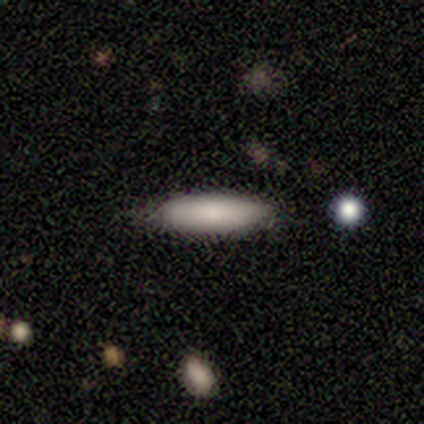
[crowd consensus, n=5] A smooth galaxy with no disk features (100%) that is cigar-shaped (80%).

Vote fractions:
- Smooth or featured? smooth: 100% / featured or disk: 0% / star or artifact: 0%
- How rounded? cigar-shaped: 80% / in between: 20% / round: 0%
- Merging? none: 100% / minor disturbance: 0% / major disturbance: 0% / merger: 0%